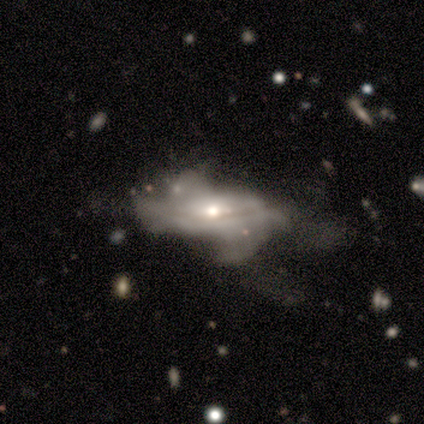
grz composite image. It shows a featured or disk galaxy (80%) with no bar (72%), no spiral arms (51%) and a moderate central bulge (68%). Merging: major disturbance (28%).